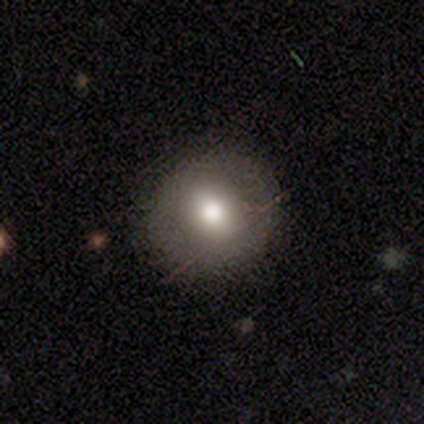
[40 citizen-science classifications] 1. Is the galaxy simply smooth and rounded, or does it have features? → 62% smooth, 28% featured or disk, 10% star or artifact.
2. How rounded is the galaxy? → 100% round, 0% in between, 0% cigar-shaped.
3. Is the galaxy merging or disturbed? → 83% none, 8% minor disturbance, 8% major disturbance, 0% merger.